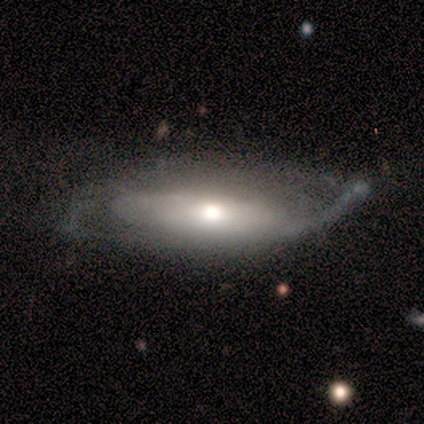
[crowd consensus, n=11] smooth_or_featured: featured or disk (p=0.64) [alt: smooth p=0.27]
disk_edge_on: no (p=0.71) [alt: yes p=0.29]
bar: no (p=1.00)
has_spiral_arms: yes (p=0.60) [alt: no p=0.40]
spiral_winding: medium (p=0.67) [alt: tight p=0.33]
spiral_arm_count: 2 (p=0.67) [alt: can't tell p=0.33]
bulge_size: moderate (p=0.60) [alt: small p=0.40]
merging: minor disturbance (p=0.60) [alt: none p=0.20]